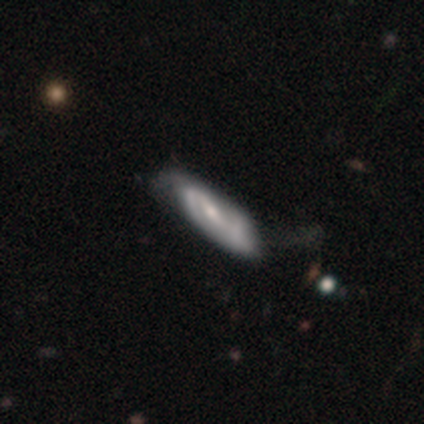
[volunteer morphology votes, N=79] Volunteers were most divided on "merging": minor disturbance: 27%, none: 23%, merger: 4%, major disturbance: 1%. Remaining: spiral arms — yes (96%); edge-on disk — no (89%); smooth or featured — featured or disk (71%); spiral arm count — 2 (62%); bar — weak (60%); bulge size — moderate (52%); spiral winding — medium (48%).